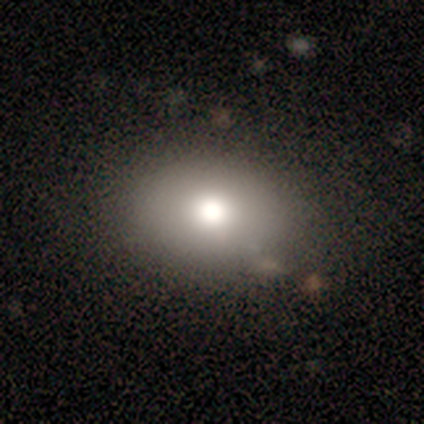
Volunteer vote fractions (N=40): This appears to be a smooth galaxy with no disk features (72%) that is in between round and cigar-shaped (66%). Merging: none (85%).